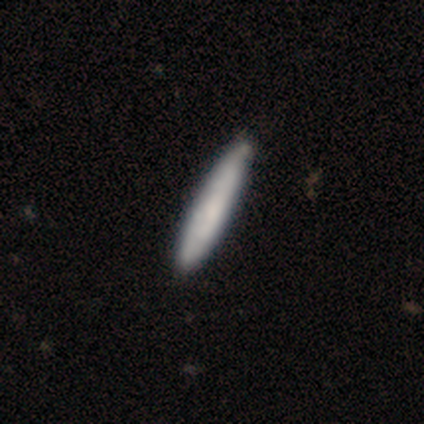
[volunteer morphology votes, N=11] This appears to be a smooth galaxy with no disk features (82%) that is cigar-shaped (100%). Merging: none (91%).